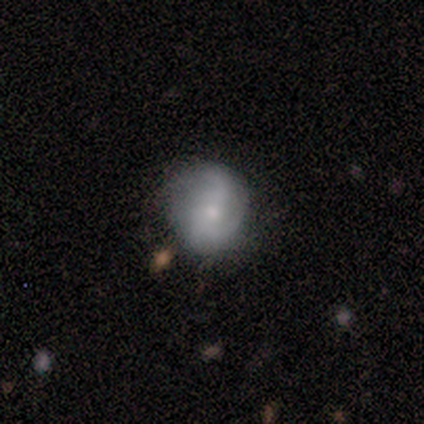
This is likely a smooth galaxy (60%). How rounded: clearly round (100%). Merging: likely none (75%).